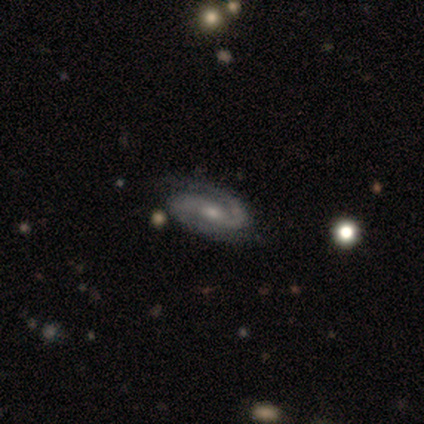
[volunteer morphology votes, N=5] Smooth or featured? featured or disk (100%)
Edge-on disk? no (100%)
Bar? weak (60%)
Spiral arms? yes (80%)
Spiral winding? tight (75%)
Spiral arm count? 2 (100%)
Bulge size? small (60%)
Merging? none (60%)